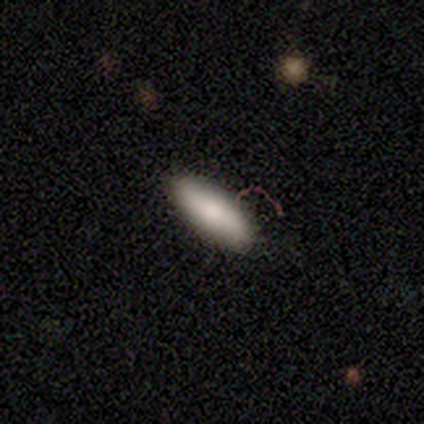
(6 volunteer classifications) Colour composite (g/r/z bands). It shows a smooth galaxy with no disk features (83%) that is cigar-shaped (60%). Merging: none (100%).